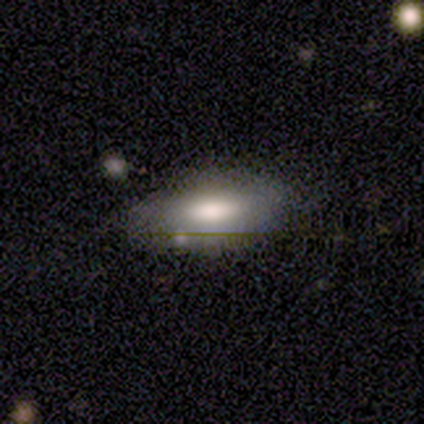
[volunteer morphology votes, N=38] Q: Smooth or featured?
A: smooth (63%); runner-up: featured or disk (24%)
Q: How rounded?
A: in between (92%); runner-up: round (4%)
Q: Merging?
A: none (73%); runner-up: minor disturbance (24%)